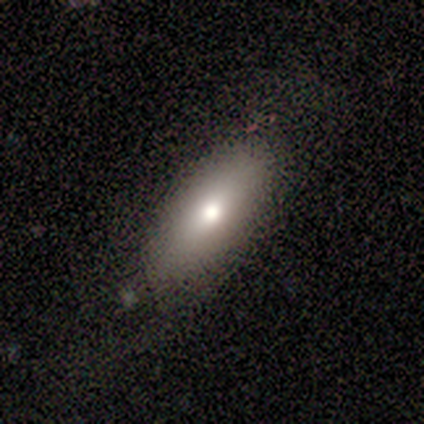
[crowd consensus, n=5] Smooth or featured?
  - smooth: 80% *
  - featured or disk: 20%
  - star or artifact: 0%
How rounded?
  - in between: 75% *
  - cigar-shaped: 25%
  - round: 0%
Merging?
  - none: 100% *
  - minor disturbance: 0%
  - major disturbance: 0%
  - merger: 0%